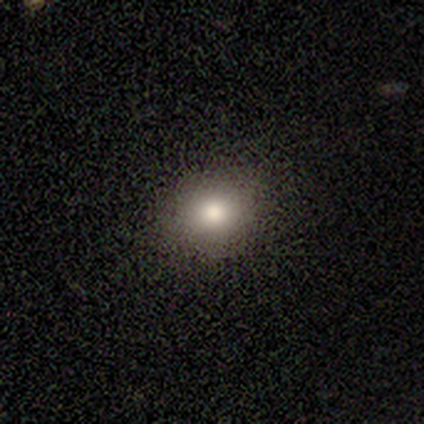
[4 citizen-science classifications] Overall: smooth (50%, tied with star or artifact). How rounded: round (100%). Merging: none (100%).